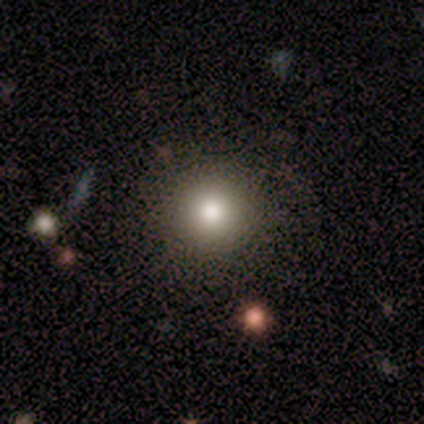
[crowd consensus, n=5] Overall: featured or disk (40%, tied with star or artifact). Edge-on disk: no (100%). Bar: no (100%). Spiral arms: no (100%). Bulge size: large (50%, tied with moderate). Merging: none (100%).